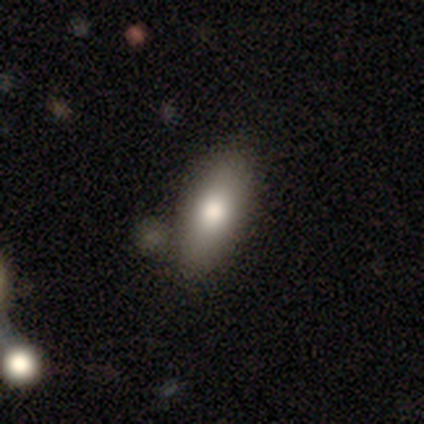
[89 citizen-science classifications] Morphology: type=smooth (78%); roundness=in between (80%); merging=none (70%).